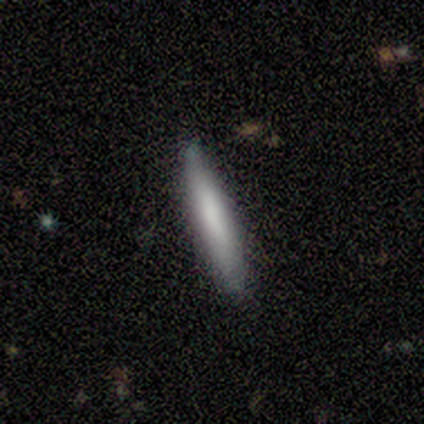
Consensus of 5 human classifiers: Smooth or featured? 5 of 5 (100%) said smooth. How rounded? 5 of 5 (100%) said cigar-shaped. Merging? 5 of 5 (100%) said none.